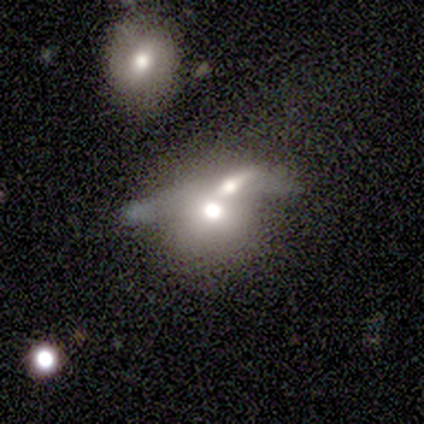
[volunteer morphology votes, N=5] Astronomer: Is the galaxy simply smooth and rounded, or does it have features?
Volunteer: smooth — 60% (runner-up: star or artifact, 40%).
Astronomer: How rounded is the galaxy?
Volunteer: round — 100%.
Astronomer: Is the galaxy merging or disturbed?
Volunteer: none — 67%.